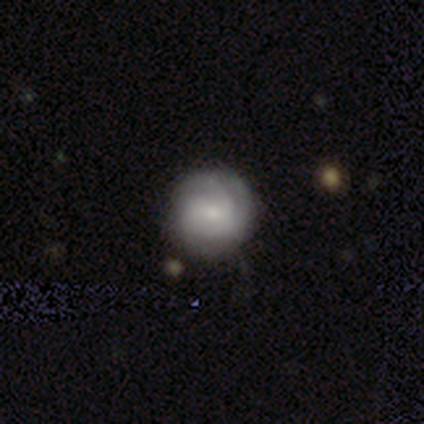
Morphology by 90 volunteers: Q: Smooth or featured?
A: featured or disk (73%); runner-up: smooth (24%)
Q: Edge-on disk?
A: no (97%); runner-up: yes (3%)
Q: Bar?
A: no (56%); runner-up: weak (42%)
Q: Spiral arms?
A: yes (95%); runner-up: no (5%)
Q: Spiral winding?
A: tight (82%); runner-up: medium (11%)
Q: Spiral arm count?
A: 3 (43%); runner-up: can't tell (30%)
Q: Bulge size?
A: small (67%); runner-up: moderate (30%)
Q: Merging?
A: none (85%); runner-up: minor disturbance (11%)